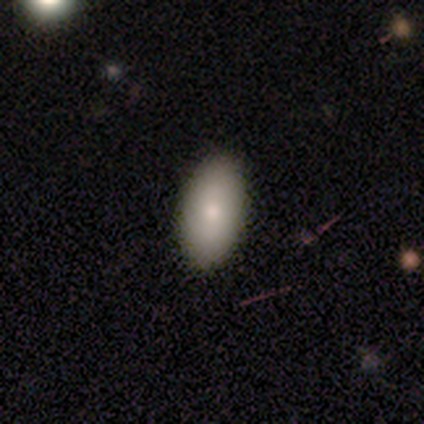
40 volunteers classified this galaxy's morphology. Volunteers were most divided on "smooth or featured": smooth: 70%, featured or disk: 22%, star or artifact: 8%. More confident: how rounded — in between (93%); merging — none (89%).